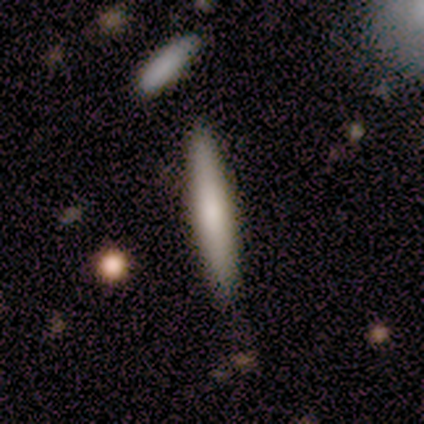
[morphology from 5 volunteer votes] Smooth or featured? smooth (80%)
How rounded? cigar-shaped (100%)
Merging? none (80%)